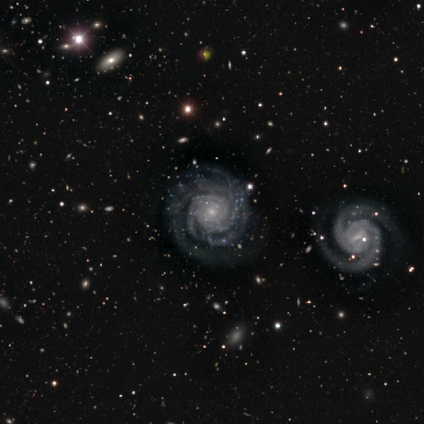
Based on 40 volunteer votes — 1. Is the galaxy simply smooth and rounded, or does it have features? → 98% featured or disk, 2% smooth, 0% star or artifact.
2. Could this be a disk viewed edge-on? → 97% no, 3% yes.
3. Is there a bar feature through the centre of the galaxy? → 74% no, 13% strong, 13% weak.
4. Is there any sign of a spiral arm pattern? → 100% yes, 0% no.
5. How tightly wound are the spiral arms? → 87% tight, 8% medium, 5% loose.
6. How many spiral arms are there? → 34% 2, 26% can't tell, 18% 3, 11% 4, 11% more than 4, 0% 1.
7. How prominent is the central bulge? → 84% small, 13% moderate, 3% none, 0% dominant, 0% large.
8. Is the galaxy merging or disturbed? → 75% none, 10% minor disturbance, 10% major disturbance, 5% merger.